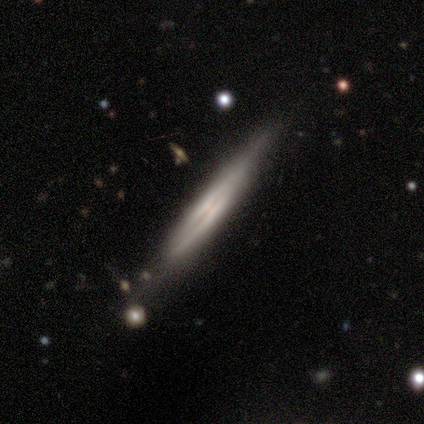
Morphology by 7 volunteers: A featured or disk galaxy (86%) viewed edge-on (100%) with a boxy central bulge (50%, tied with none). Merging: none (86%).